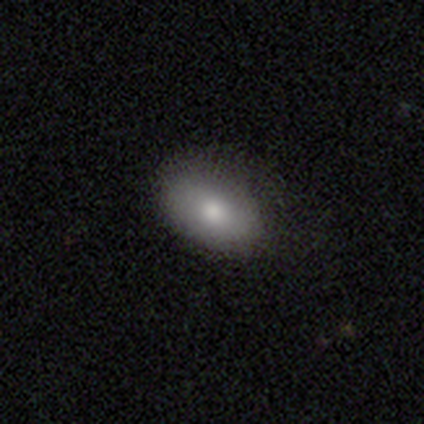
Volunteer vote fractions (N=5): Q: Smooth or featured?
A: smooth (100%)
Q: How rounded?
A: in between (100%)
Q: Merging?
A: none (80%); runner-up: minor disturbance (20%)